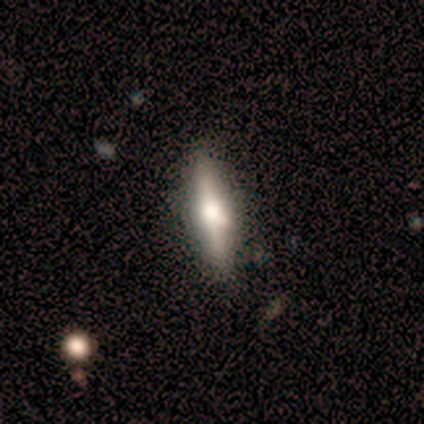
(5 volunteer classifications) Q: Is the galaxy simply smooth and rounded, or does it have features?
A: featured or disk — 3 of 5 (60%).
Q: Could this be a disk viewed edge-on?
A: yes — 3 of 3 (100%).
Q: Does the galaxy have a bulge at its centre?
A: rounded — 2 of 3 (67%).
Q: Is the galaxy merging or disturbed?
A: none — 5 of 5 (100%).